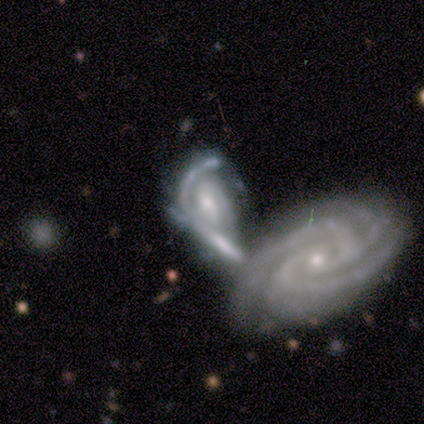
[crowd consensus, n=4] Smooth or featured: featured or disk — 100%
Edge-on disk: no — 100%
Bar: no — 75% (weak — 25%)
Spiral arms: yes — 100%
Spiral winding: tight — 50% (medium — 25%)
Spiral arm count: 1 — 25% (tied with 2 — 25%; 4 — 25%; can't tell — 25%)
Bulge size: small — 75% (moderate — 25%)
Merging: merger — 75% (minor disturbance — 25%)